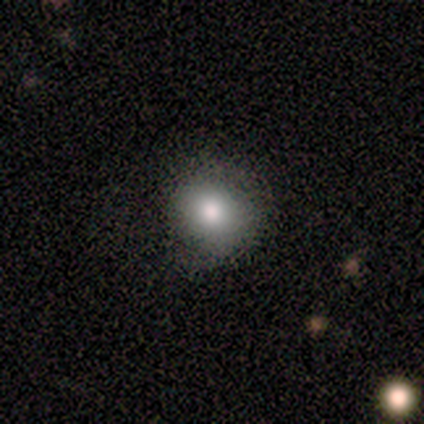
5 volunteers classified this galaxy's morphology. This appears to be a smooth galaxy with no disk features (60%) that is round (67%). Merging: none (60%).